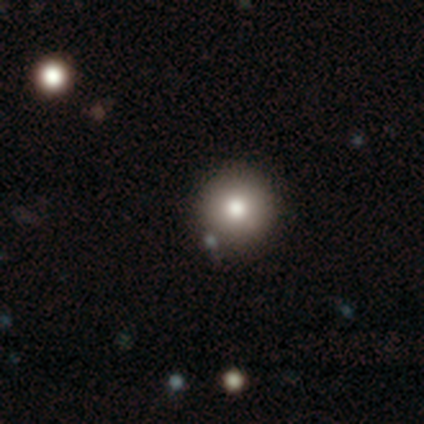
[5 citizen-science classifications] Smooth or featured?
  - smooth: 60% *
  - star or artifact: 40%
  - featured or disk: 0%
How rounded?
  - round: 67% *
  - in between: 33%
  - cigar-shaped: 0%
Merging?
  - none: 100% *
  - minor disturbance: 0%
  - major disturbance: 0%
  - merger: 0%